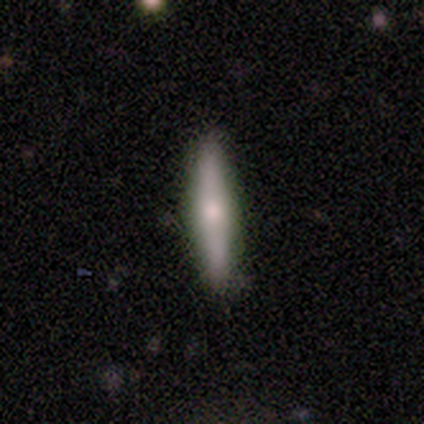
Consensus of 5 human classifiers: A smooth galaxy with no disk features (60%) that is cigar-shaped (67%). Merging: none (100%).